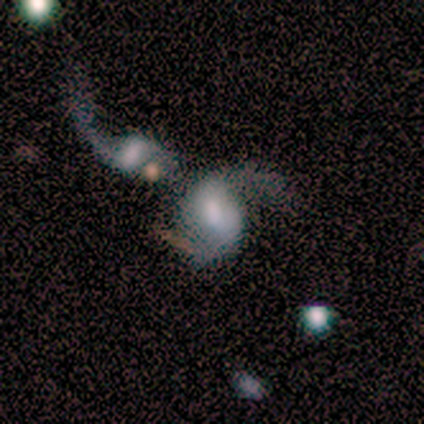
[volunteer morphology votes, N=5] Smooth or featured? featured or disk (100%)
Edge-on disk? no (100%)
Bar? weak (80%)
Spiral arms? yes (100%)
Spiral winding? loose (80%)
Spiral arm count? 2 (80%)
Bulge size? moderate (60%)
Merging? merger (60%)